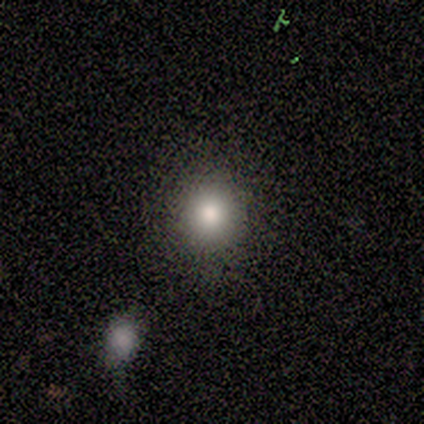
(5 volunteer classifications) This appears to be a smooth galaxy with no disk features (40%, tied with star or artifact) that is round (100%). Merging: none (100%).